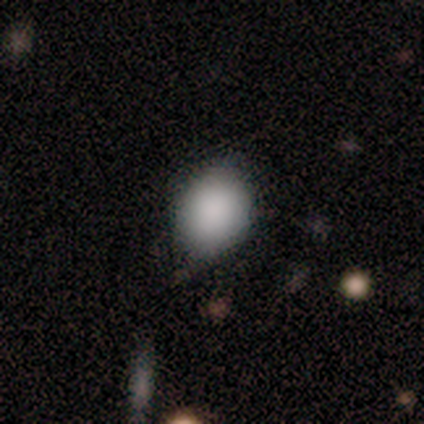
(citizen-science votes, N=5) Smooth or featured?
  - smooth: 100% *
  - featured or disk: 0%
  - star or artifact: 0%
How rounded?
  - round: 60% *
  - in between: 40%
  - cigar-shaped: 0%
Merging?
  - none: 60% *
  - minor disturbance: 40%
  - major disturbance: 0%
  - merger: 0%